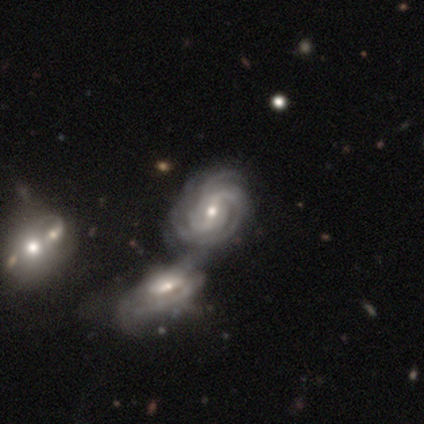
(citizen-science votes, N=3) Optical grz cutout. It shows a featured or disk galaxy (100%) with a weak bar (100%), 2 (33%, tied with 3 and more than 4) tight (67%) spiral arms (100%) and a small central bulge (67%). Merging: merger (100%).